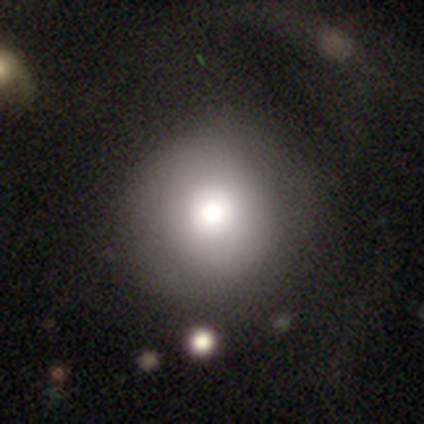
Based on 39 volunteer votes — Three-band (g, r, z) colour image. It shows a smooth galaxy with no disk features (67%) that is round (96%). Merging: none (58%).